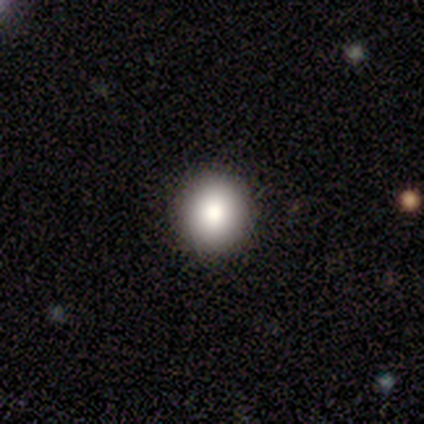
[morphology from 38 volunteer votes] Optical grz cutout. It shows a smooth galaxy with no disk features (76%) that is round (83%). Merging: none (84%).